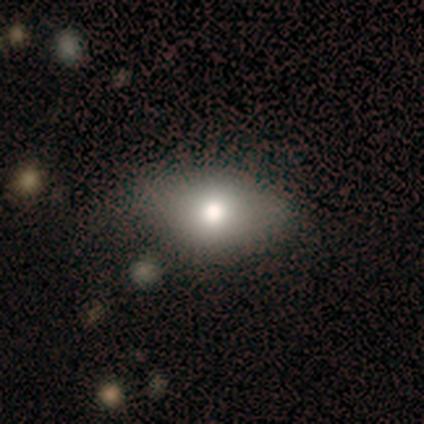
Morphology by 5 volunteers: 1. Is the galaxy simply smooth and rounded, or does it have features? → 60% smooth, 40% featured or disk, 0% star or artifact.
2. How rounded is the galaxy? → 100% in between, 0% round, 0% cigar-shaped.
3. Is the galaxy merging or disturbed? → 80% none, 20% minor disturbance, 0% major disturbance, 0% merger.